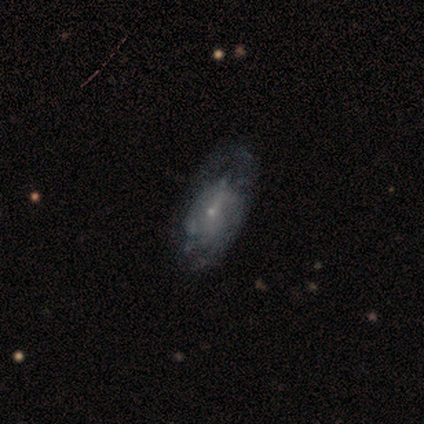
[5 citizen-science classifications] Smooth or featured? featured or disk (80%)
Edge-on disk? no (100%)
Bar? weak (50%, tied with no)
Spiral arms? yes (50%, tied with no)
Spiral winding? tight (50%, tied with loose)
Spiral arm count? can't tell (100%)
Bulge size? small (75%)
Merging? none (75%)